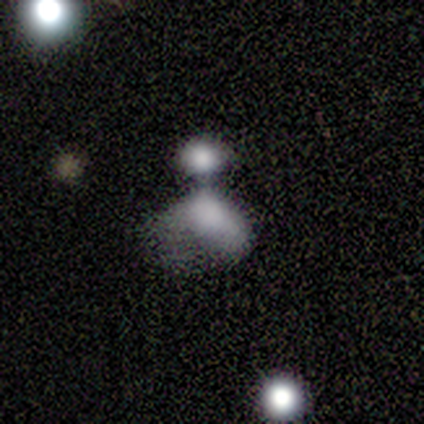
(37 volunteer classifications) smooth_or_featured: smooth (p=0.68) [alt: featured or disk p=0.19]
how_rounded: in between (p=0.88) [alt: round p=0.12]
merging: merger (p=0.44) [alt: major disturbance p=0.28]